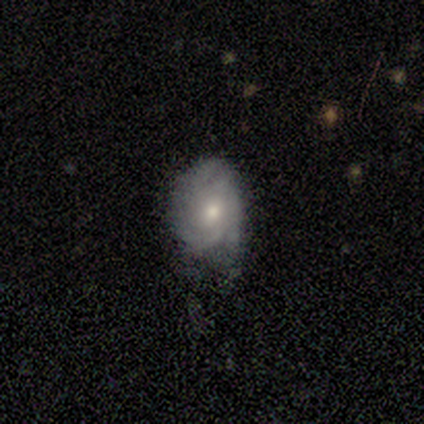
Smooth or featured: featured or disk — 76% (smooth — 24%)
Edge-on disk: no — 96% (yes — 4%)
Bar: no — 74% (weak — 26%)
Spiral arms: yes — 89% (no — 11%)
Spiral winding: tight — 54% (medium — 38%)
Spiral arm count: can't tell — 38% (3 — 33%)
Bulge size: moderate — 59% (small — 41%)
Merging: none — 62% (minor disturbance — 30%)